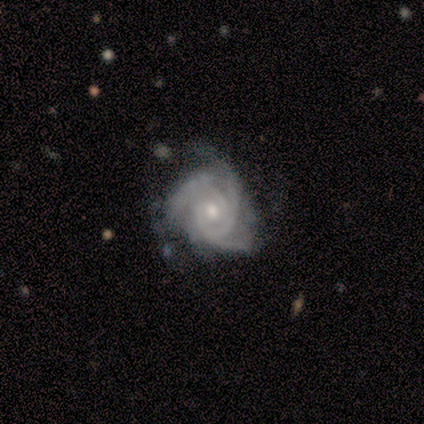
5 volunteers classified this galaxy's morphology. Q: Smooth or featured?
A: featured or disk (100%)
Q: Edge-on disk?
A: no (100%)
Q: Bar?
A: no (80%); runner-up: weak (20%)
Q: Spiral arms?
A: yes (100%)
Q: Spiral winding?
A: tight (60%); runner-up: medium (40%)
Q: Spiral arm count?
A: 3 (60%); runner-up: can't tell (40%)
Q: Bulge size?
A: small (100%)
Q: Merging?
A: none (80%); runner-up: minor disturbance (20%)